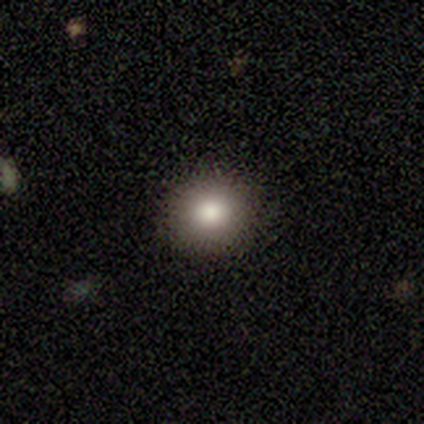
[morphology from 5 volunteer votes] smooth-or-featured: smooth: 80% | star or artifact: 20% | featured or disk: 0%
  how-rounded: round: 75% | in between: 25% | cigar-shaped: 0%
  merging: none: 100% | minor disturbance: 0% | major disturbance: 0% | merger: 0%